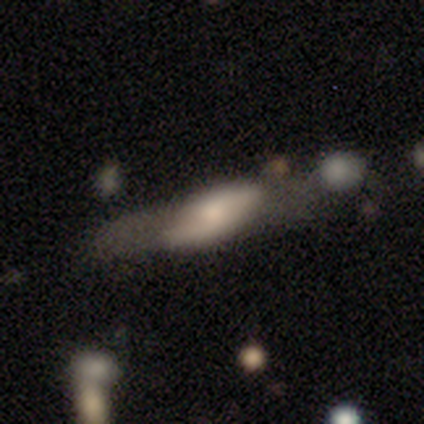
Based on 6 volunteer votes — smooth_or_featured: featured or disk (p=0.83) [alt: smooth p=0.17]
disk_edge_on: no (p=0.60) [alt: yes p=0.40]
bar: no (p=0.67) [alt: strong p=0.33]
has_spiral_arms: yes (p=0.67) [alt: no p=0.33]
spiral_winding: loose (p=1.00)
spiral_arm_count: 2 (p=1.00)
bulge_size: moderate (p=0.67) [alt: large p=0.33]
merging: none (p=0.67) [alt: major disturbance p=0.17]